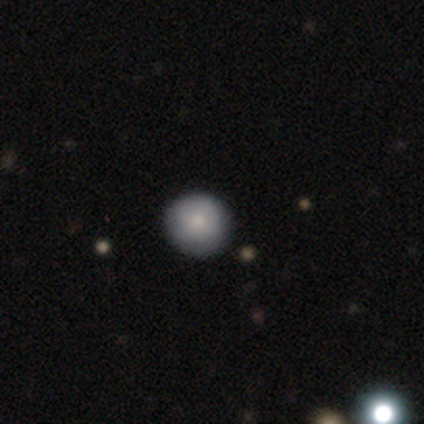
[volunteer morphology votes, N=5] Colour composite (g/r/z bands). It shows a smooth galaxy with no disk features (100%) that is round (80%). Merging: none (60%).